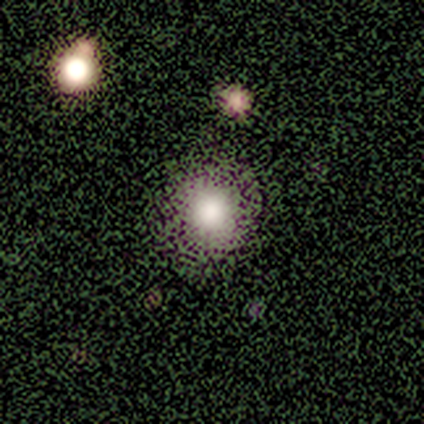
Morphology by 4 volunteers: A smooth galaxy with no disk features (50%, tied with star or artifact) that is round (100%).

Vote fractions:
- Smooth or featured? smooth: 50% (tied) / star or artifact: 50% (tied) / featured or disk: 0%
- How rounded? round: 100% / in between: 0% / cigar-shaped: 0%
- Merging? none: 100% / minor disturbance: 0% / major disturbance: 0% / merger: 0%